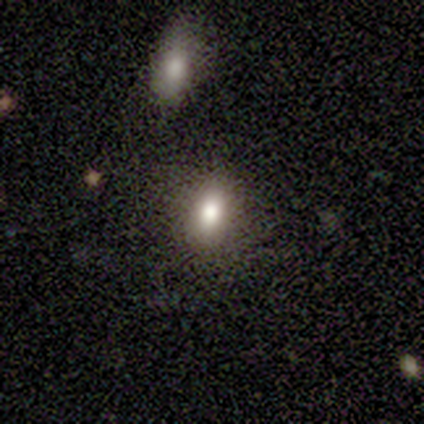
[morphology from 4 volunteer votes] Smooth or featured?
  - smooth: 75% *
  - star or artifact: 25%
  - featured or disk: 0%
How rounded?
  - in between: 100% *
  - round: 0%
  - cigar-shaped: 0%
Merging?
  - none: 100% *
  - minor disturbance: 0%
  - major disturbance: 0%
  - merger: 0%